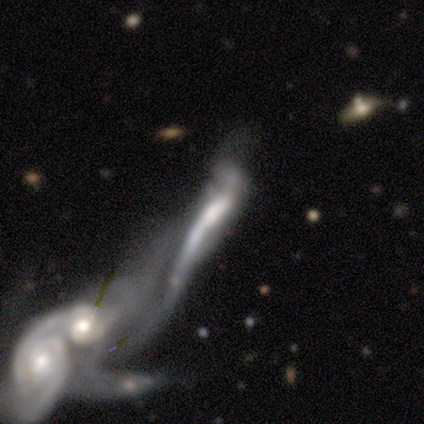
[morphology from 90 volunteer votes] type=featured or disk (81%); edge-on=no (82%); bar=no (60%); spiral arms=yes (68%); winding=tight (49%); arm count=2 (56%); bulge=moderate (50%); merging=merger (85%).